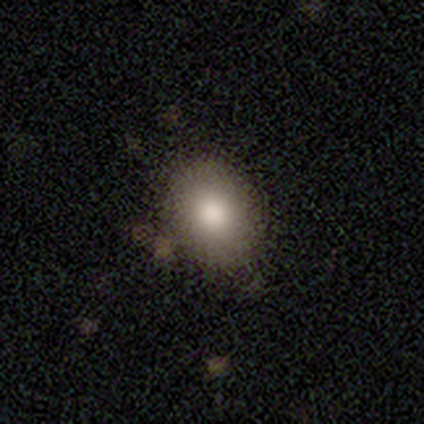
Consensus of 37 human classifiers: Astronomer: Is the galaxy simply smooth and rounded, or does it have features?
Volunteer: smooth — 81%.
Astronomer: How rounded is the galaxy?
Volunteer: in between — 63%.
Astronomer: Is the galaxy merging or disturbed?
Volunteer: none — 68%.